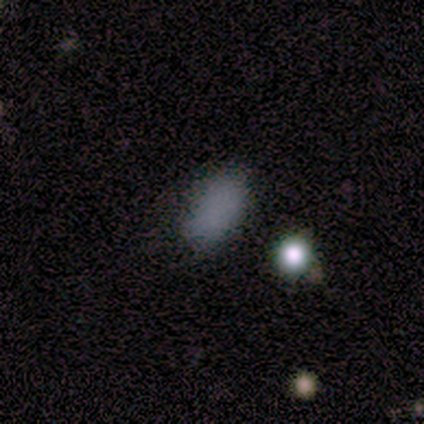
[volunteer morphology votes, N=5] star or artifact 60%, smooth 40%, featured or disk 0%.